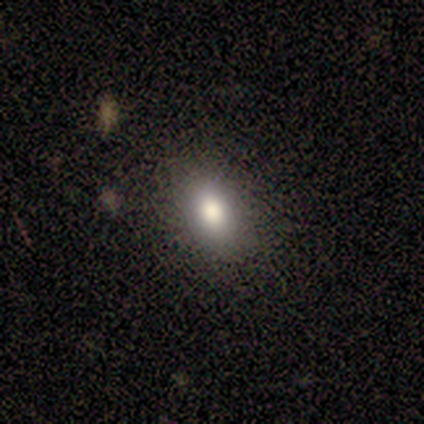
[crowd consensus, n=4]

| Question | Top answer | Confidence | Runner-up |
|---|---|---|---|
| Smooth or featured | smooth | 100% | — |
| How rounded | round | 75% | in between (25%) |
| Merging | none | 100% | — |